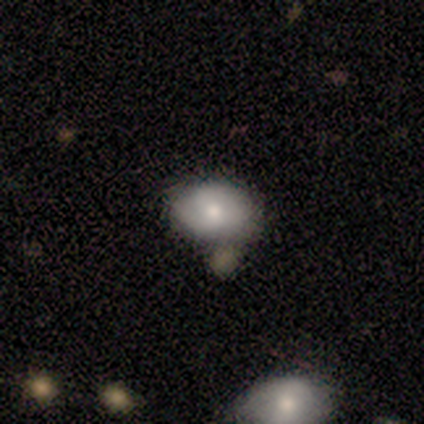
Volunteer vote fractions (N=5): A smooth galaxy with no disk features (60%) that is in between round and cigar-shaped (67%). Merging: none (75%).